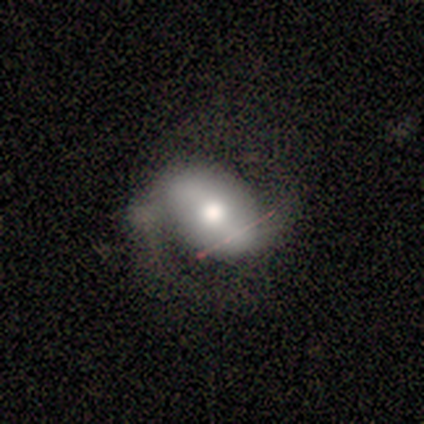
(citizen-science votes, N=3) A featured or disk galaxy (67%) with a strong bar (50%, tied with no), 2 (100%) medium (50%, tied with loose) spiral arms (100%) and a moderate central bulge (100%).

Vote fractions:
- Smooth or featured? featured or disk: 67% / smooth: 33% / star or artifact: 0%
- Edge-on disk? no: 100% / yes: 0%
- Bar? strong: 50% (tied) / no: 50% (tied) / weak: 0%
- Spiral arms? yes: 100% / no: 0%
- Spiral winding? medium: 50% (tied) / loose: 50% (tied) / tight: 0%
- Spiral arm count? 2: 100% / 1: 0% / 3: 0% / 4: 0% / more than 4: 0% / can't tell: 0%
- Bulge size? moderate: 100% / dominant: 0% / large: 0% / small: 0% / none: 0%
- Merging? minor disturbance: 67% / none: 33% / major disturbance: 0% / merger: 0%